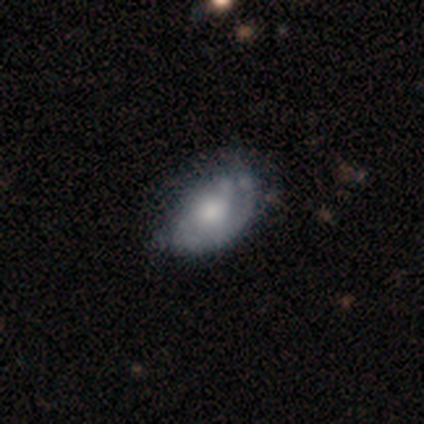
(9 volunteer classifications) Smooth or featured? featured or disk (67%)
Edge-on disk? no (100%)
Bar? no (100%)
Spiral arms? yes (67%)
Spiral winding? tight (50%)
Spiral arm count? 1 (75%)
Bulge size? moderate (100%)
Merging? none (56%)